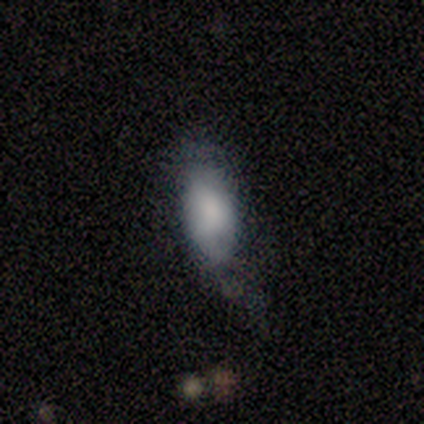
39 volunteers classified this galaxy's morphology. This is likely a smooth galaxy (72%). How rounded: clearly in between (93%). Merging: possibly minor disturbance (46%).